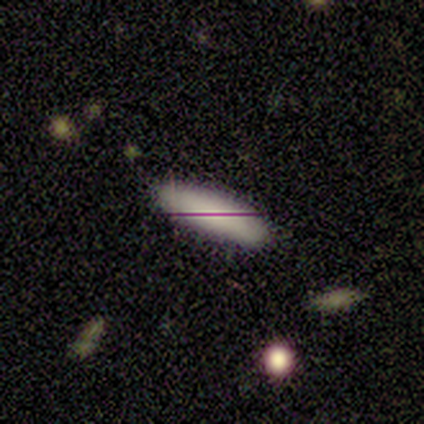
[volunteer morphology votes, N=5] A smooth galaxy with no disk features (80%) that is in between round and cigar-shaped (75%).

Vote fractions:
- Smooth or featured? smooth: 80% / star or artifact: 20% / featured or disk: 0%
- How rounded? in between: 75% / cigar-shaped: 25% / round: 0%
- Merging? none: 75% / merger: 25% / minor disturbance: 0% / major disturbance: 0%